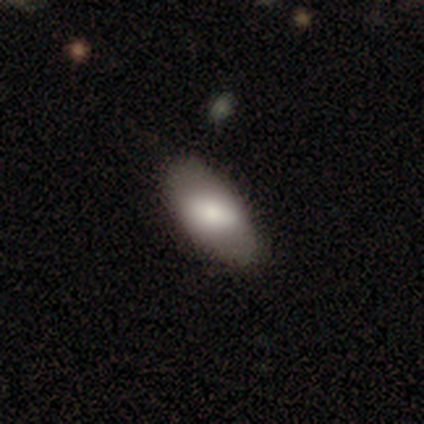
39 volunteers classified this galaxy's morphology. smooth_or_featured: smooth (p=0.74) [alt: featured or disk p=0.23]
how_rounded: in between (p=1.00)
merging: none (p=0.87) [alt: minor disturbance p=0.11]